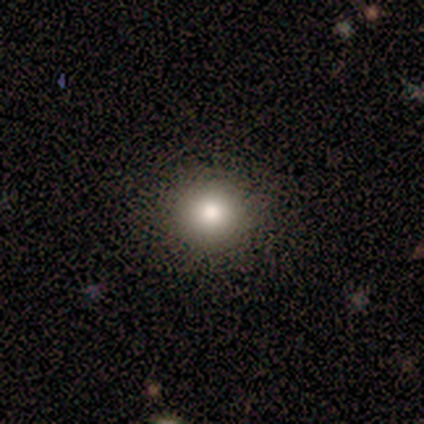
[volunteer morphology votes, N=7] A smooth galaxy with no disk features (100%) that is round (100%). Merging: none (86%).